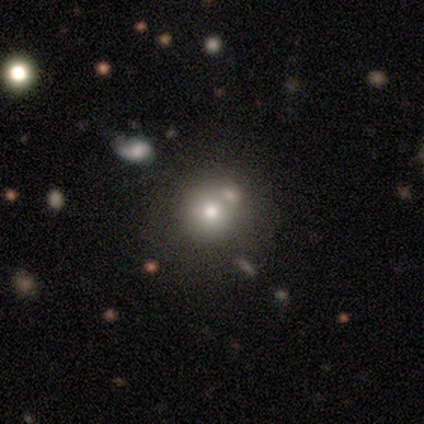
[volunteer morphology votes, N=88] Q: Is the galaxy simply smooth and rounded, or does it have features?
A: smooth — 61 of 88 (69%).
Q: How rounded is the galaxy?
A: round — 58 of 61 (95%).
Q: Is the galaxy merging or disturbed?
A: none — 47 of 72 (65%).